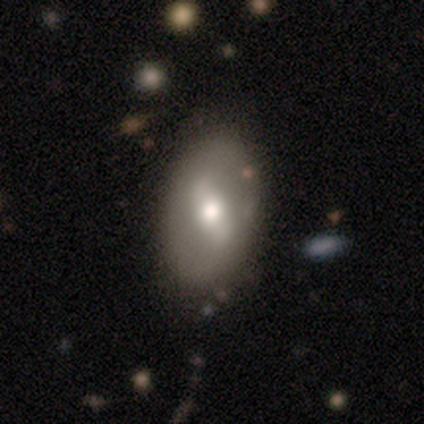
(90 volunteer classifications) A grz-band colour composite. It shows a featured or disk galaxy (58%) with a strong bar (50%), no spiral arms (67%) and a moderate central bulge (77%). Merging: none (81%).